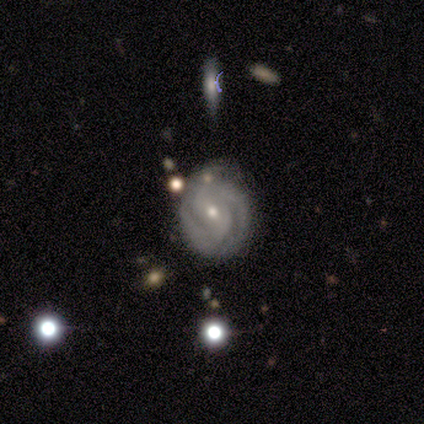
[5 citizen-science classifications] Q: Smooth or featured?
A: featured or disk (100%)
Q: Edge-on disk?
A: no (100%)
Q: Bar?
A: weak (60%); runner-up: strong (20%)
Q: Spiral arms?
A: yes (100%)
Q: Spiral winding?
A: medium (60%); runner-up: tight (40%)
Q: Spiral arm count?
A: 2 (60%); runner-up: can't tell (40%)
Q: Bulge size?
A: small (80%); runner-up: dominant (20%)
Q: Merging?
A: none (60%); runner-up: minor disturbance (20%)